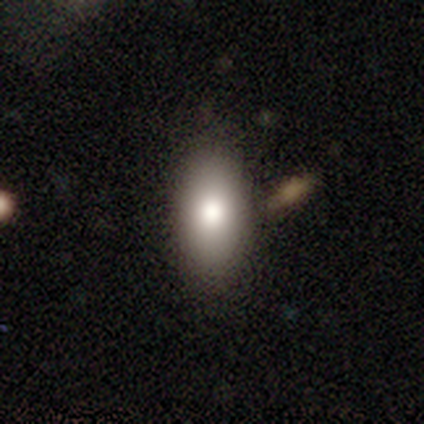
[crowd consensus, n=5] Overall: smooth (80%). How rounded: in between (100%). Merging: none (100%).